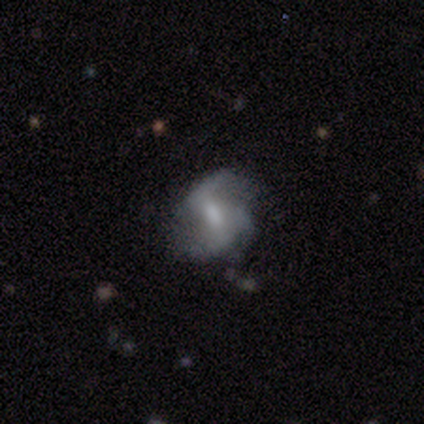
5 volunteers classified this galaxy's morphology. type=featured or disk (100%); edge-on=no (100%); bar=strong (40%, tied with weak); spiral arms=yes (100%); winding=loose (60%); arm count=2 (60%); bulge=moderate (40%, tied with small); merging=none (80%).